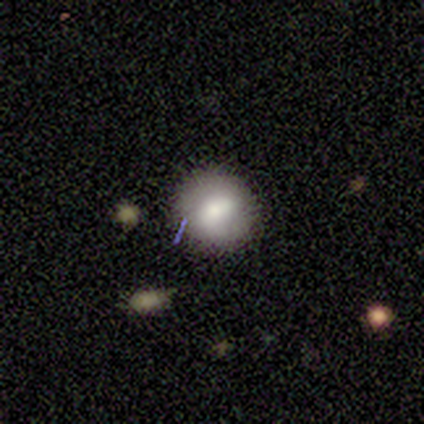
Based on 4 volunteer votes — Smooth or featured? smooth (75%)
How rounded? round (67%)
Merging? none (100%)